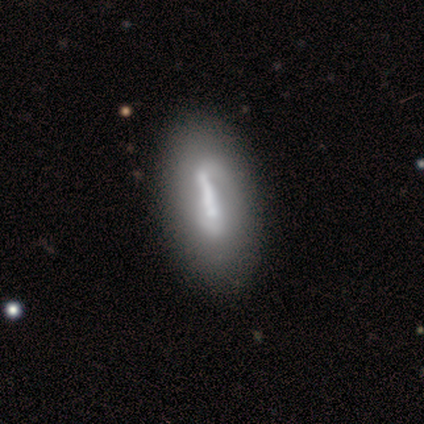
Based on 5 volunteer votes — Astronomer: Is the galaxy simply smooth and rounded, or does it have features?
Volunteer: smooth — 60% (runner-up: featured or disk, 40%).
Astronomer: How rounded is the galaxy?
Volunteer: in between — 67%.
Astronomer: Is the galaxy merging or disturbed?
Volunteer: none — 100%.